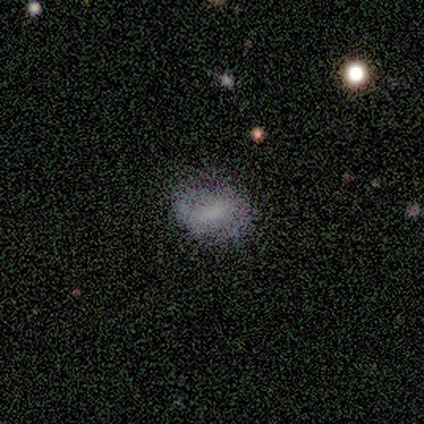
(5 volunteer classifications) Q: Smooth or featured?
A: smooth (60%); runner-up: featured or disk (40%)
Q: How rounded?
A: in between (67%); runner-up: round (33%)
Q: Merging?
A: none (80%); runner-up: minor disturbance (20%)